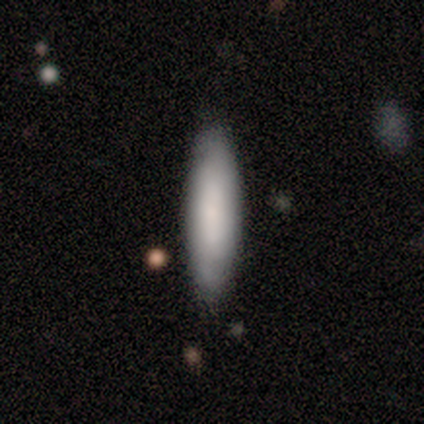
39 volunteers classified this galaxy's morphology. smooth_or_featured: smooth (p=0.82) [alt: featured or disk p=0.10]
how_rounded: cigar-shaped (p=0.66) [alt: in between p=0.34]
merging: none (p=0.78) [alt: minor disturbance p=0.17]